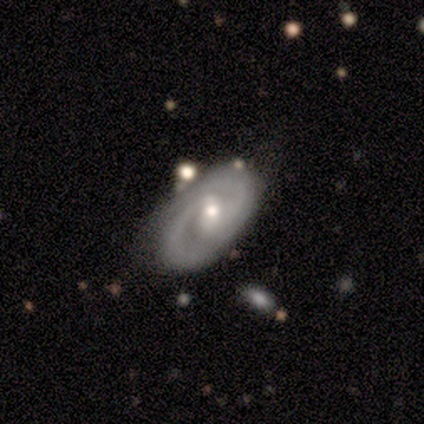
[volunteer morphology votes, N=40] smooth-or-featured: featured or disk: 90% | smooth: 8% | star or artifact: 2%
  disk-edge-on: no: 92% | yes: 8%
    bar: weak: 64% | no: 27% | strong: 9%
    has-spiral-arms: yes: 100% | no: 0%
      spiral-winding: tight: 55% | medium: 36% | loose: 9%
      spiral-arm-count: 2: 79% | can't tell: 12% | 3: 9% | 1: 0% | 4: 0% | more than 4: 0%
    bulge-size: moderate: 58% | small: 33% | dominant: 3% | large: 3% | none: 3%
  merging: none: 79% | minor disturbance: 21% | major disturbance: 0% | merger: 0%